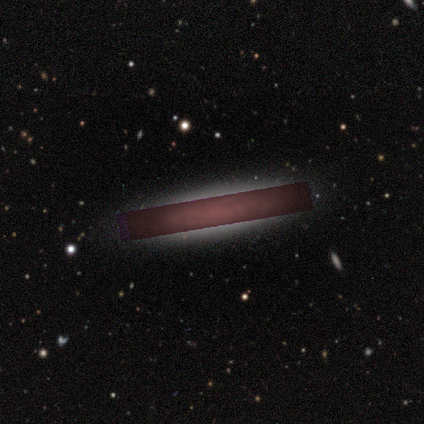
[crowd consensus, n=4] Overall: smooth (75%). How rounded: in between (67%; cigar-shaped 33%). Merging: none (100%).